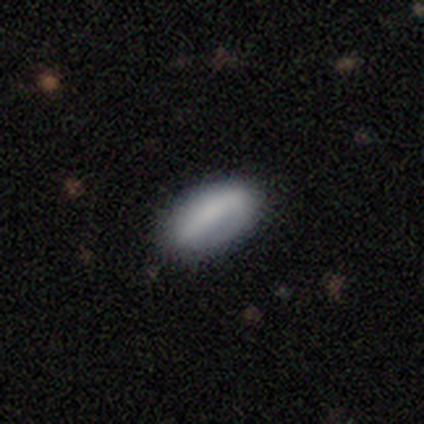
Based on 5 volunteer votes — Volunteers were most divided on "merging": none: 60%, minor disturbance: 20%, major disturbance: 20%, merger: 0%. More confident: smooth or featured — smooth (80%); how rounded — in between (75%).